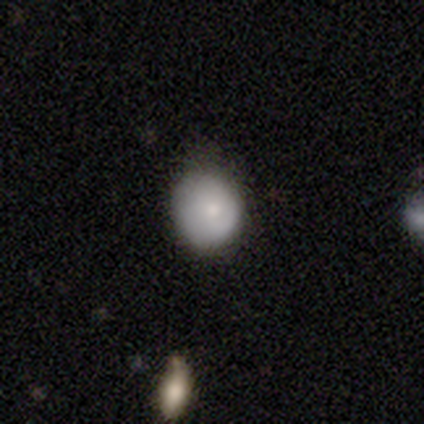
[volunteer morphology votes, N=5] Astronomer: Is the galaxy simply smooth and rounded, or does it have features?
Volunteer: smooth — 60%.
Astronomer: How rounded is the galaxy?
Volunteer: round — 100%.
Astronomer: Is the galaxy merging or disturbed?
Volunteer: none — 50%.